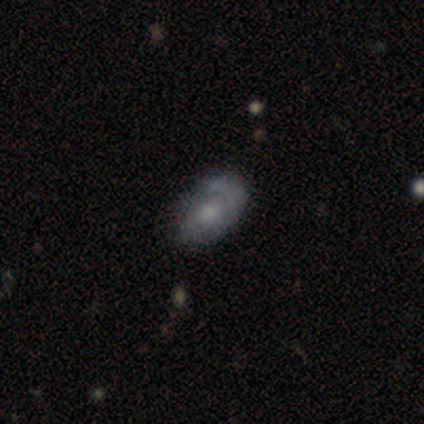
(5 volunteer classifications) Smooth or featured: featured or disk — 40% (tied with star or artifact — 40%)
Edge-on disk: no — 100%
Bar: no — 100%
Spiral arms: yes — 100%
Spiral winding: medium — 100%
Spiral arm count: 1 — 50% (tied with 2 — 50%)
Bulge size: moderate — 50% (tied with small — 50%)
Merging: none — 67% (minor disturbance — 33%)